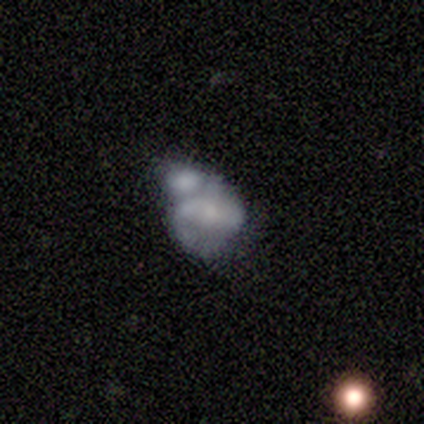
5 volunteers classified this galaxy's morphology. Smooth or featured? 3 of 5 (60%) said featured or disk. Edge-on disk? 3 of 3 (100%) said no. Bar? 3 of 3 (100%) said no. Spiral arms? 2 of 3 (67%) said yes. Spiral winding? 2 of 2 (100%) said medium. Spiral arm count? 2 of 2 (100%) said 2. Bulge size? 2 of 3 (67%) said small. Merging? 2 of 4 (50%) said merger.